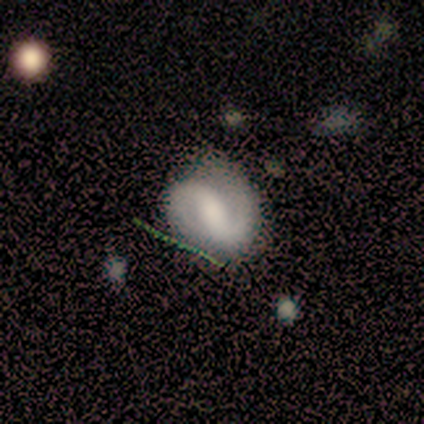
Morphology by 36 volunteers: A featured or disk galaxy (83%) with a strong bar (53%), 2 (96%) medium (36%, tied with loose) spiral arms (83%) and a moderate central bulge (33%). Merging: none (77%).